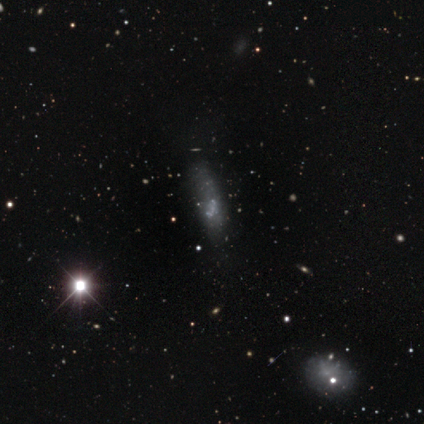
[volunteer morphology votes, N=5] type=featured or disk (60%); edge-on=no (100%); bar=no (67%); spiral arms=no (100%); bulge=small (67%); merging=none (67%).